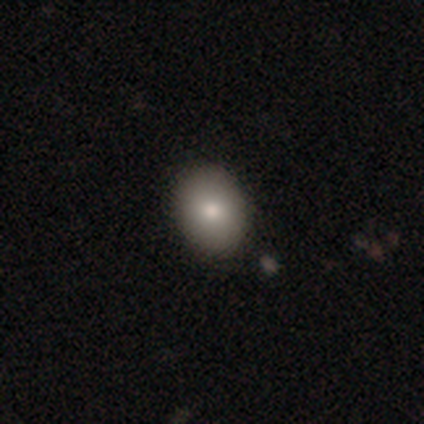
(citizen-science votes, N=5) smooth 80%, featured or disk 20%, star or artifact 0%. Down the decision tree: how rounded — in between (100%); merging — none (100%).